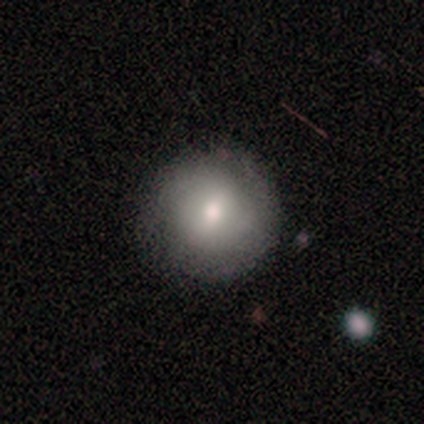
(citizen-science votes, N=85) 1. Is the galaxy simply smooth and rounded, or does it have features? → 68% smooth, 22% featured or disk, 9% star or artifact.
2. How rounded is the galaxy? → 93% round, 5% in between, 2% cigar-shaped.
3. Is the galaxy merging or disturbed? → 88% none, 5% minor disturbance, 4% major disturbance, 3% merger.